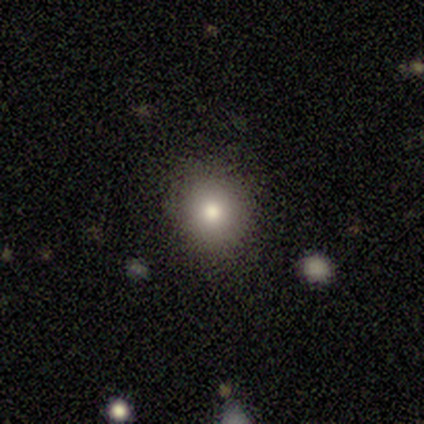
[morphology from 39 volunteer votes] smooth 74%, featured or disk 13%, star or artifact 13%. Down the decision tree: how rounded — round (90%); merging — none (97%).